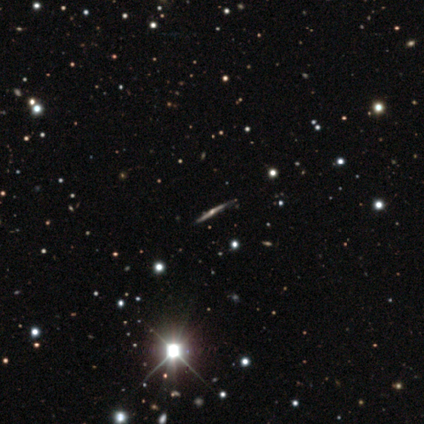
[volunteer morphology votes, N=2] A featured or disk galaxy (100%) viewed edge-on (100%) with a rounded central bulge (100%).

Vote fractions:
- Smooth or featured? featured or disk: 100% / smooth: 0% / star or artifact: 0%
- Edge-on disk? yes: 100% / no: 0%
- Edge-on bulge? rounded: 100% / boxy: 0% / none: 0%
- Merging? none: 100% / minor disturbance: 0% / major disturbance: 0% / merger: 0%